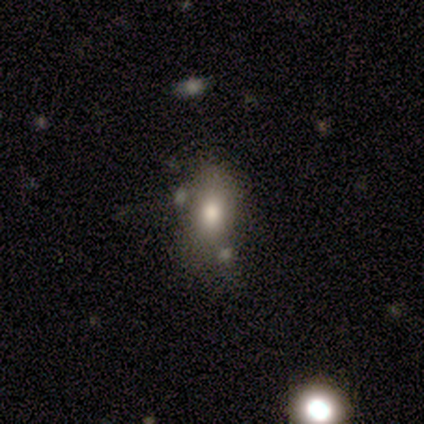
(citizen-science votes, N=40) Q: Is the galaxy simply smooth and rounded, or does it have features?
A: smooth — 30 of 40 (75%).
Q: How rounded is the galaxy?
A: in between — 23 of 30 (77%).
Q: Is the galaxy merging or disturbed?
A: none — 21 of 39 (54%).